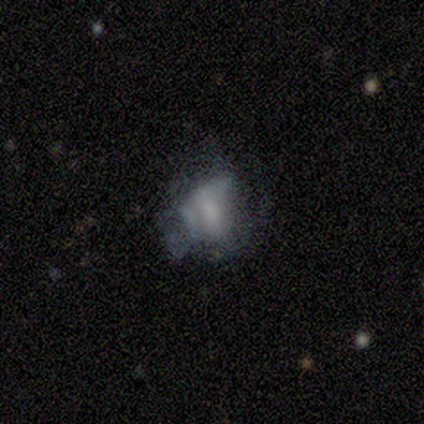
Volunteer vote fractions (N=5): A featured or disk galaxy (60%) with no bar (67%), no spiral arms (67%) and a large central bulge (33%, tied with moderate and none).

Vote fractions:
- Smooth or featured? featured or disk: 60% / smooth: 20% / star or artifact: 20%
- Edge-on disk? no: 100% / yes: 0%
- Bar? no: 67% / weak: 33% / strong: 0%
- Spiral arms? no: 67% / yes: 33%
- Bulge size? large: 33% (tied) / moderate: 33% (tied) / none: 33% (tied) / dominant: 0% / small: 0%
- Merging? none: 50% (tied) / major disturbance: 50% (tied) / minor disturbance: 0% / merger: 0%